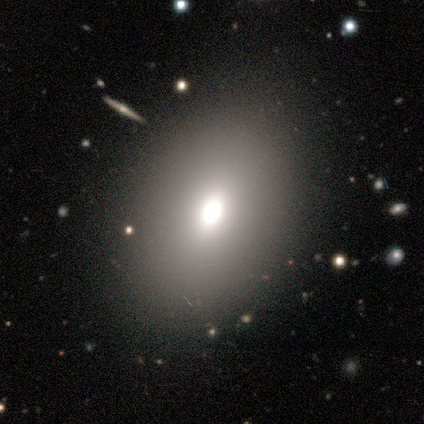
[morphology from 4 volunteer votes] Overall: smooth (50%; featured or disk 25%). How rounded: in between (100%). Merging: none (67%; minor disturbance 33%).